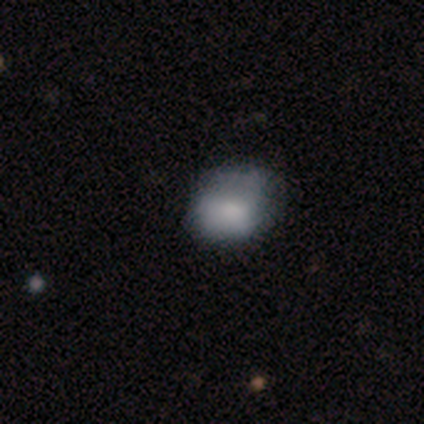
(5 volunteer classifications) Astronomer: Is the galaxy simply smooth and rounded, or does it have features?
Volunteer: smooth — 100%.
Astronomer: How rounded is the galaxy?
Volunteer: round — 60% (runner-up: in between, 40%).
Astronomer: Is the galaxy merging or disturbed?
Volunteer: none — 60% (runner-up: minor disturbance, 40%).